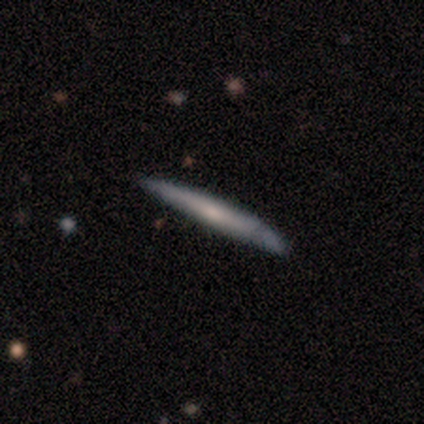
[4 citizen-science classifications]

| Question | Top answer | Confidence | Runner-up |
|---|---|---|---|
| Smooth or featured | smooth | 50% | tied: featured or disk (50%) |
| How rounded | cigar-shaped | 100% | — |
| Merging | none | 50% | minor disturbance (25%) |